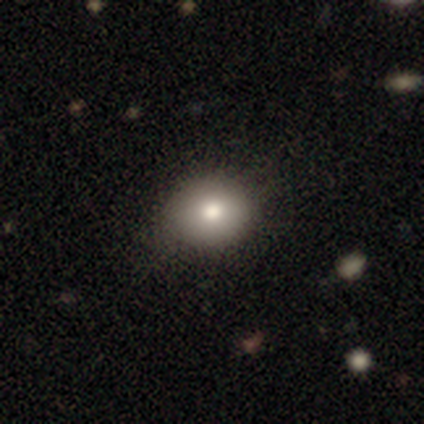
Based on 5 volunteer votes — This appears to be a smooth galaxy with no disk features (100%) that is round (80%). Merging: none (80%).